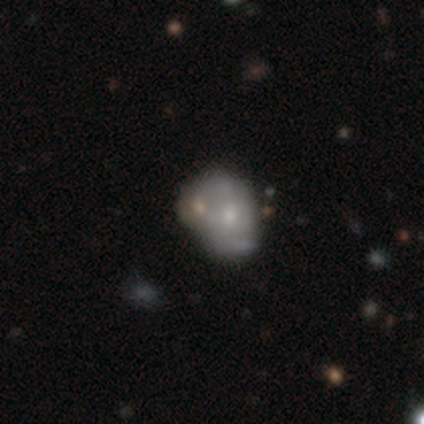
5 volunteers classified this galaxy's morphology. smooth-or-featured: featured or disk: 60% | smooth: 40% | star or artifact: 0%
  disk-edge-on: no: 100% | yes: 0%
    bar: no: 100% | strong: 0% | weak: 0%
    has-spiral-arms: no: 67% | yes: 33%
    bulge-size: small: 67% | large: 33% | dominant: 0% | moderate: 0% | none: 0%
  merging: minor disturbance: 60% | none: 20% | major disturbance: 20% | merger: 0%